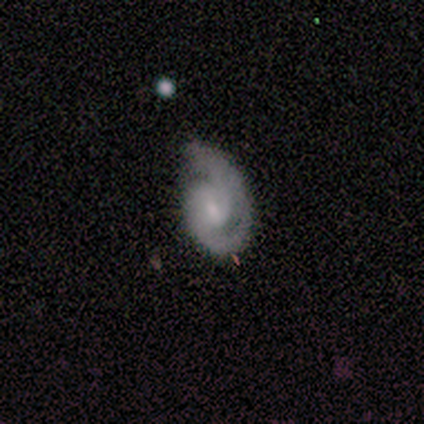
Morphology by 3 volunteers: A featured or disk galaxy (100%) with a weak bar (67%), 2 (67%) medium (67%) spiral arms (100%) and a large central bulge (33%, tied with moderate and small).

Vote fractions:
- Smooth or featured? featured or disk: 100% / smooth: 0% / star or artifact: 0%
- Edge-on disk? no: 100% / yes: 0%
- Bar? weak: 67% / no: 33% / strong: 0%
- Spiral arms? yes: 100% / no: 0%
- Spiral winding? medium: 67% / tight: 33% / loose: 0%
- Spiral arm count? 2: 67% / 1: 33% / 3: 0% / 4: 0% / more than 4: 0% / can't tell: 0%
- Bulge size? large: 33% (tied) / moderate: 33% (tied) / small: 33% (tied) / dominant: 0% / none: 0%
- Merging? none: 67% / minor disturbance: 33% / major disturbance: 0% / merger: 0%